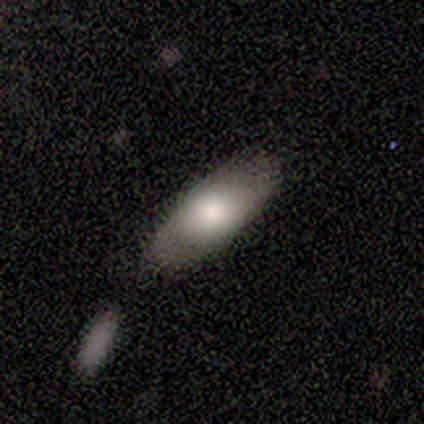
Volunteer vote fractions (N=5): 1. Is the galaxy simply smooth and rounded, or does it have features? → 60% smooth, 40% featured or disk, 0% star or artifact.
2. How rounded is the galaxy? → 100% in between, 0% round, 0% cigar-shaped.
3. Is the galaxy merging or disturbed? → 80% none, 20% merger, 0% minor disturbance, 0% major disturbance.